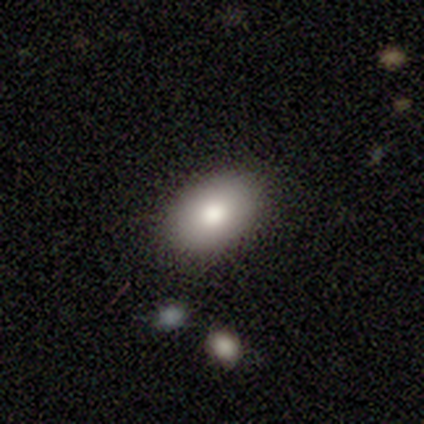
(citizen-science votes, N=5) This is clearly a smooth galaxy (80%). How rounded: clearly in between (100%). Merging: clearly none (100%).